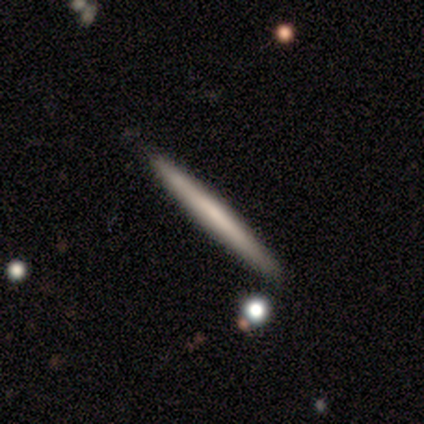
Smooth or featured? smooth (60%)
How rounded? cigar-shaped (100%)
Merging? none (90%)